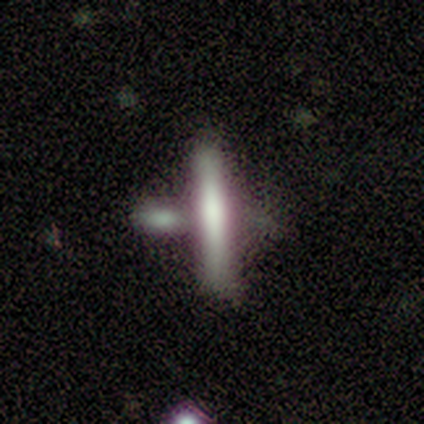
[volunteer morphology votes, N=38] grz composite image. It shows a smooth galaxy with no disk features (53%) that is cigar-shaped (100%). Merging: none (45%).